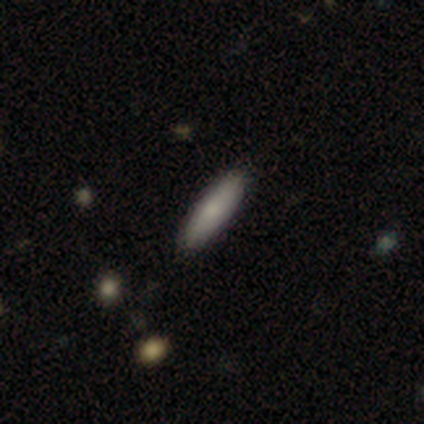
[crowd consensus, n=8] A smooth galaxy with no disk features (62%) that is cigar-shaped (80%).

Vote fractions:
- Smooth or featured? smooth: 62% / featured or disk: 25% / star or artifact: 12%
- How rounded? cigar-shaped: 80% / in between: 20% / round: 0%
- Merging? none: 86% / minor disturbance: 14% / major disturbance: 0% / merger: 0%